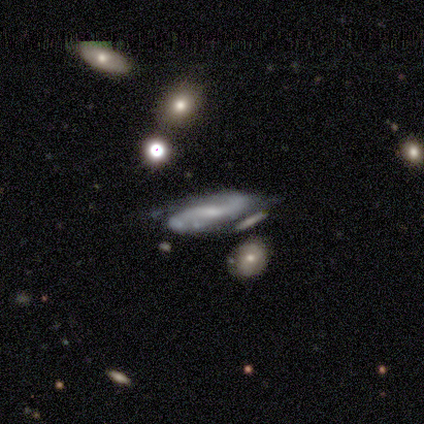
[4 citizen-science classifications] smooth-or-featured: featured or disk: 100% | smooth: 0% | star or artifact: 0%
  disk-edge-on: no: 100% | yes: 0%
    bar: weak: 75% | no: 25% | strong: 0%
    has-spiral-arms: yes: 100% | no: 0%
      spiral-winding: medium: 50% | tight: 25% | loose: 25%
      spiral-arm-count: can't tell: 75% | 2: 25% | 1: 0% | 3: 0% | 4: 0% | more than 4: 0%
    bulge-size: small: 75% | moderate: 25% | dominant: 0% | large: 0% | none: 0%
  merging: minor disturbance: 50% | none: 25% | merger: 25% | major disturbance: 0%